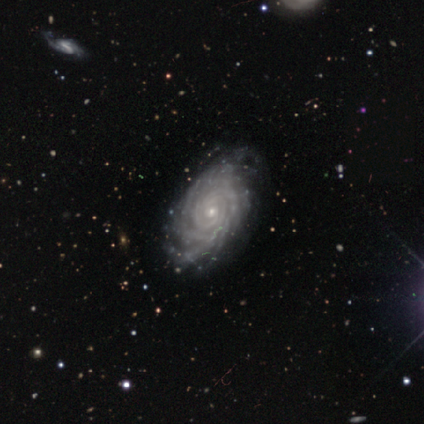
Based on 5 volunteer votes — Smooth or featured: featured or disk — 100%
Edge-on disk: no — 100%
Bar: no — 80% (weak — 20%)
Spiral arms: yes — 100%
Spiral winding: tight — 100%
Spiral arm count: more than 4 — 60% (3 — 20%)
Bulge size: small — 100%
Merging: none — 60% (minor disturbance — 40%)